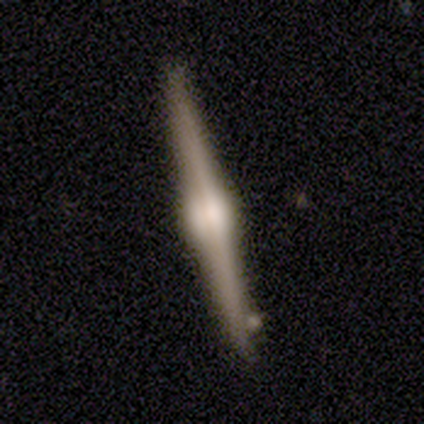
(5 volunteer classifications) Smooth or featured?
  - featured or disk: 80% *
  - star or artifact: 20%
  - smooth: 0%
Edge-on disk?
  - yes: 100% *
  - no: 0%
Edge-on bulge?
  - rounded: 100% *
  - boxy: 0%
  - none: 0%
Merging?
  - none: 100% *
  - minor disturbance: 0%
  - major disturbance: 0%
  - merger: 0%